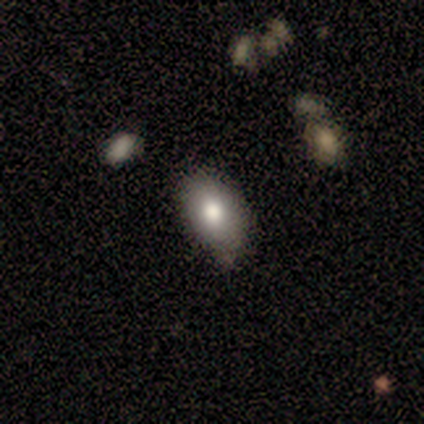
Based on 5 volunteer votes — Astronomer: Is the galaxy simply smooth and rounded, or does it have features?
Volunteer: smooth — 80%.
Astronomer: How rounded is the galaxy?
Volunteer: in between — 75%.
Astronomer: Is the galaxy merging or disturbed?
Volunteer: none — 80%.